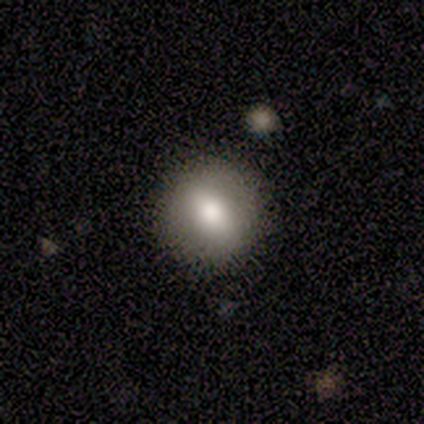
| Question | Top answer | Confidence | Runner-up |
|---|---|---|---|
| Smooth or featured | featured or disk | 60% | smooth (40%) |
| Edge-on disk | no | 100% | — |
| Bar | no | 67% | weak (33%) |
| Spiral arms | no | 100% | — |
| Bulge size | moderate | 67% | large (33%) |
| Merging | none | 80% | merger (20%) |